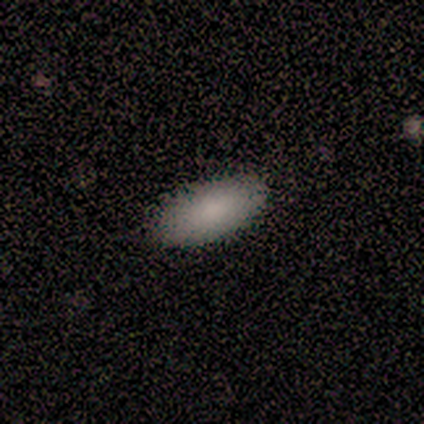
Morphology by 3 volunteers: A smooth galaxy with no disk features (67%) that is in between round and cigar-shaped (100%). Merging: none (100%).